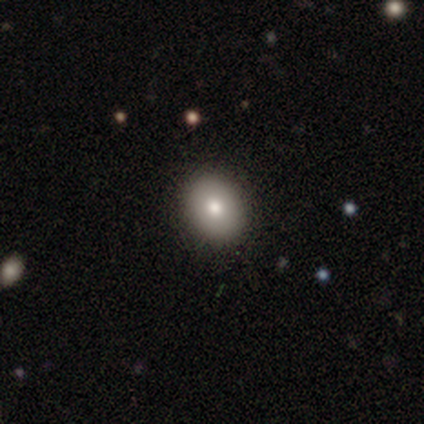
Overall: smooth (100%). How rounded: round (80%). Merging: none (100%).